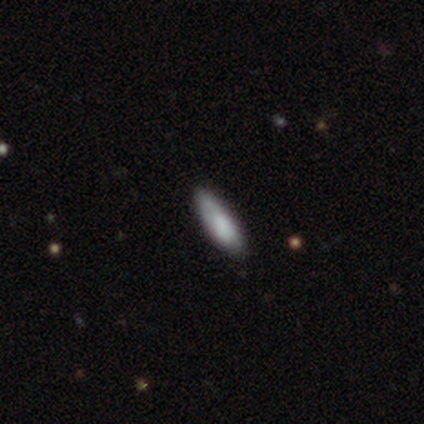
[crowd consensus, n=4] smooth 100%, featured or disk 0%, star or artifact 0%. Down the decision tree: how rounded — cigar-shaped (75%); merging — none (50%, tied with minor disturbance).